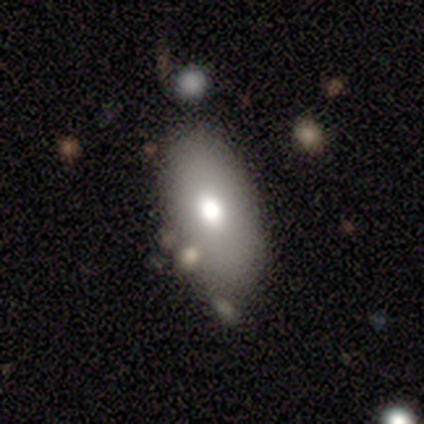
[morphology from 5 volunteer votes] Overall: smooth (80%). How rounded: in between (100%). Merging: none (60%; minor disturbance 40%).